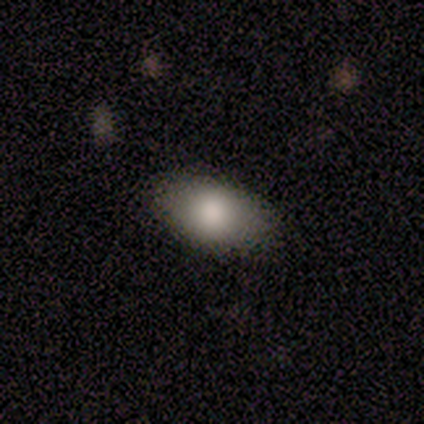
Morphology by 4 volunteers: Smooth or featured? 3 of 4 (75%) said smooth. How rounded? 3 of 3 (100%) said in between. Merging? 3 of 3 (100%) said none.